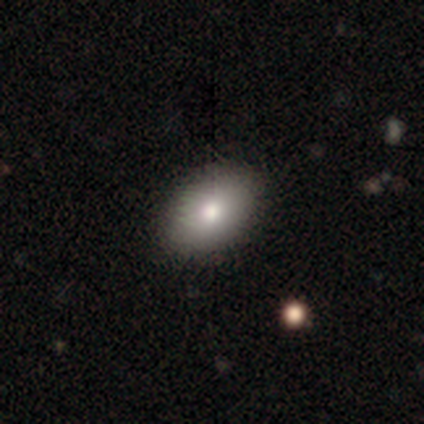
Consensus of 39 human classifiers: Smooth or featured? smooth (77%)
How rounded? in between (80%)
Merging? none (83%)